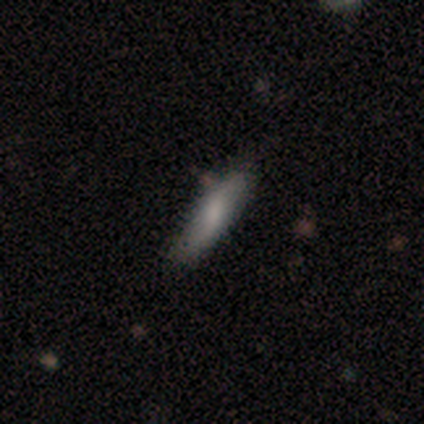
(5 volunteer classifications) Morphology: type=smooth (100%); roundness=cigar-shaped (80%); merging=none (100%).